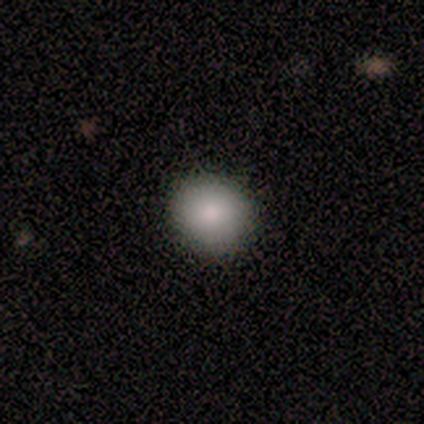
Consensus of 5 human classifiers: This appears to be a smooth galaxy with no disk features (100%) that is round (80%). Merging: none (100%).